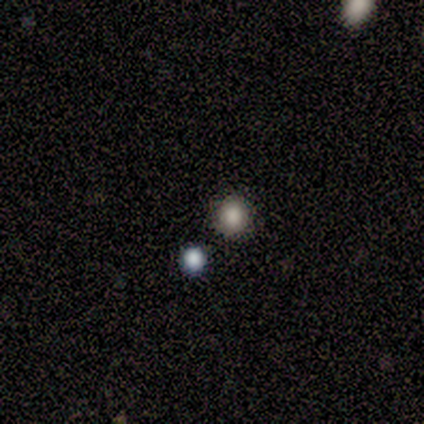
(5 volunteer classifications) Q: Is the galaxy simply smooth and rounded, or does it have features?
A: smooth — 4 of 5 (80%).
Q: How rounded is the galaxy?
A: round — 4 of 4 (100%).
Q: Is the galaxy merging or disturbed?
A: none — 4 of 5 (80%).